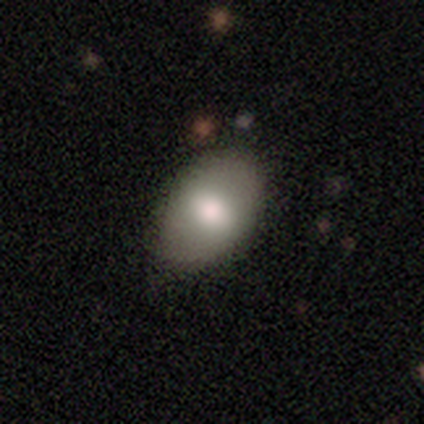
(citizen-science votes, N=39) Q: Smooth or featured?
A: smooth (79%); runner-up: featured or disk (18%)
Q: How rounded?
A: in between (77%); runner-up: round (23%)
Q: Merging?
A: none (66%); runner-up: minor disturbance (24%)